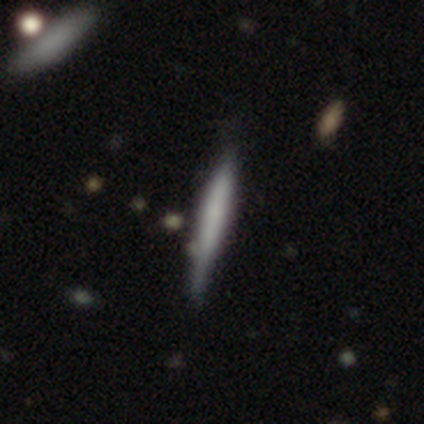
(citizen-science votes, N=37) Smooth or featured?
  - smooth: 65% *
  - featured or disk: 30%
  - star or artifact: 5%
How rounded?
  - cigar-shaped: 92% *
  - in between: 8%
  - round: 0%
Merging?
  - none: 69% *
  - minor disturbance: 23%
  - merger: 9%
  - major disturbance: 0%